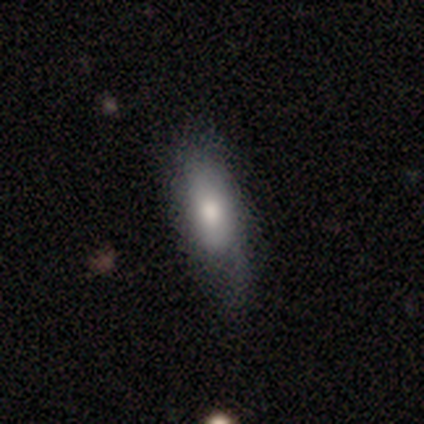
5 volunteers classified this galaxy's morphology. Smooth or featured?
  - smooth: 80% *
  - featured or disk: 20%
  - star or artifact: 0%
How rounded?
  - in between: 75% *
  - cigar-shaped: 25%
  - round: 0%
Merging?
  - none: 60% *
  - minor disturbance: 20%
  - major disturbance: 20%
  - merger: 0%